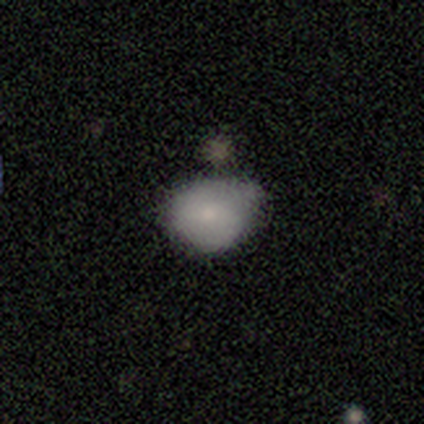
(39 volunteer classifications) This is likely a smooth galaxy (77%). How rounded: likely round (60%). Merging: possibly minor disturbance (53%).